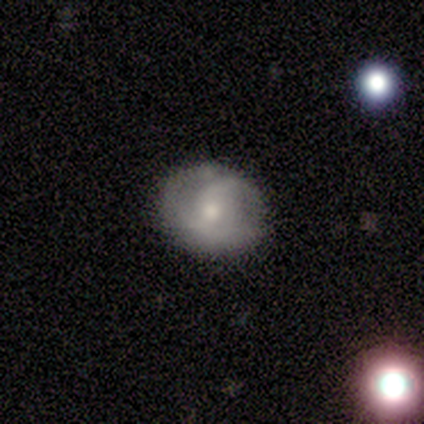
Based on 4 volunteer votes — A featured or disk galaxy (75%) with a weak bar (67%), 2 (67%) medium (100%) spiral arms (100%) and a moderate central bulge (100%).

Vote fractions:
- Smooth or featured? featured or disk: 75% / smooth: 25% / star or artifact: 0%
- Edge-on disk? no: 100% / yes: 0%
- Bar? weak: 67% / no: 33% / strong: 0%
- Spiral arms? yes: 100% / no: 0%
- Spiral winding? medium: 100% / tight: 0% / loose: 0%
- Spiral arm count? 2: 67% / can't tell: 33% / 1: 0% / 3: 0% / 4: 0% / more than 4: 0%
- Bulge size? moderate: 100% / dominant: 0% / large: 0% / small: 0% / none: 0%
- Merging? minor disturbance: 75% / none: 25% / major disturbance: 0% / merger: 0%